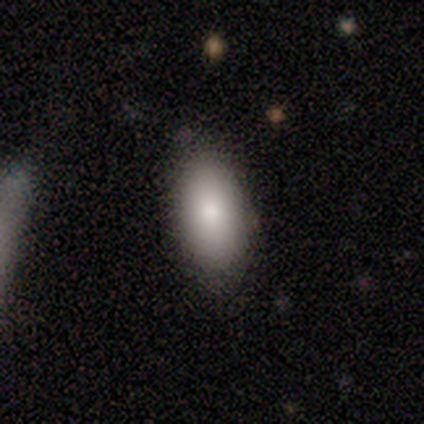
Morphology: type=smooth (79%); roundness=in between (91%); merging=none (84%).